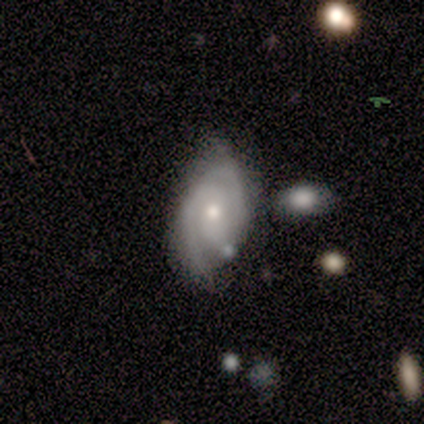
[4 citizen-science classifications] A featured or disk galaxy (75%) with a weak bar (67%), 2 (100%) tight (67%) spiral arms (100%) and a moderate central bulge (67%). Merging: none (75%).